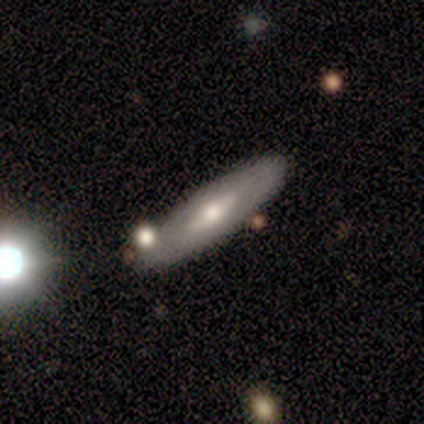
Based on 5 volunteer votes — This appears to be a featured or disk galaxy (60%) viewed edge-on (67%) with a boxy central bulge (50%, tied with rounded). Merging: none (80%).